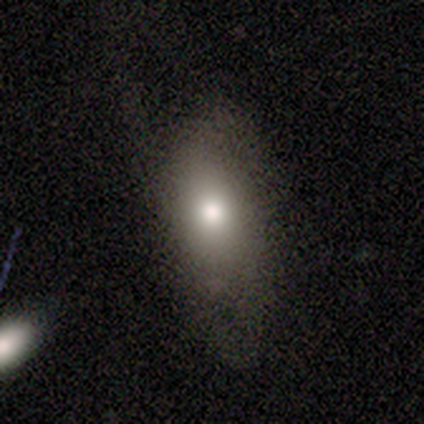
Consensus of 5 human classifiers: Overall: smooth (60%; featured or disk 40%). How rounded: in between (67%; round 33%). Merging: none (40%, tied with minor disturbance).